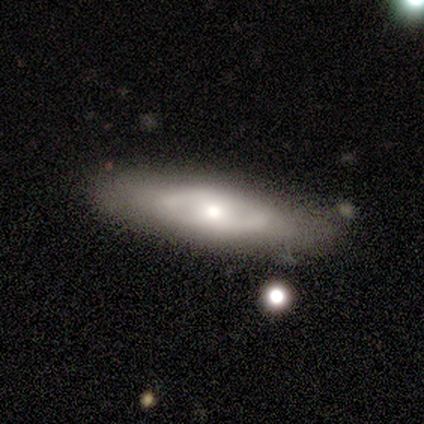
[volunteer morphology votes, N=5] type=featured or disk (60%); edge-on=no (67%); bar=no (100%); spiral arms=yes (50%, tied with no); winding=medium (100%); arm count=2 (100%); bulge=moderate (50%, tied with small); merging=none (50%).